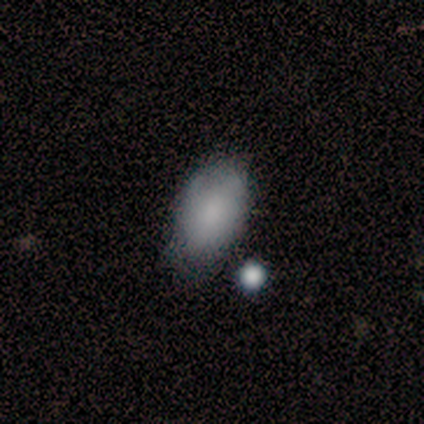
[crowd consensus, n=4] Smooth or featured?
  - smooth: 75% *
  - featured or disk: 25%
  - star or artifact: 0%
How rounded?
  - in between: 100% *
  - round: 0%
  - cigar-shaped: 0%
Merging?
  - none: 75% *
  - minor disturbance: 25%
  - major disturbance: 0%
  - merger: 0%